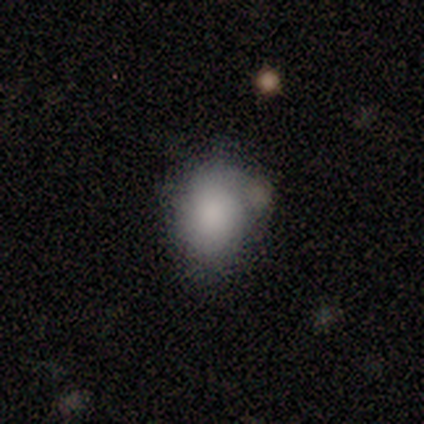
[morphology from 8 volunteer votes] Smooth or featured: smooth — 75% (featured or disk — 12%)
How rounded: in between — 83% (round — 17%)
Merging: minor disturbance — 43% (none — 29%)